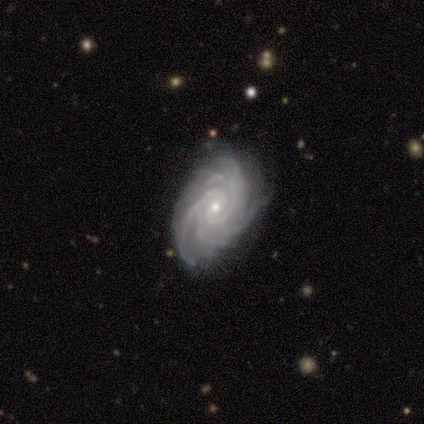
Overall: featured or disk (100%). Edge-on disk: no (100%). Bar: weak (50%, tied with no). Spiral arms: yes (100%). Spiral arm count: more than 4 (50%, tied with can't tell). Spiral winding: tight (50%, tied with medium). Bulge size: small (100%). Merging: none (50%, tied with minor disturbance).